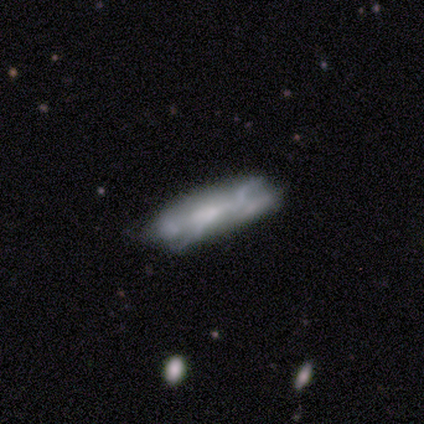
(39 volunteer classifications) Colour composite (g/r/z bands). It shows a featured or disk galaxy (56%) with no bar (81%), no spiral arms (81%) and no central bulge (50%). Merging: none (47%).